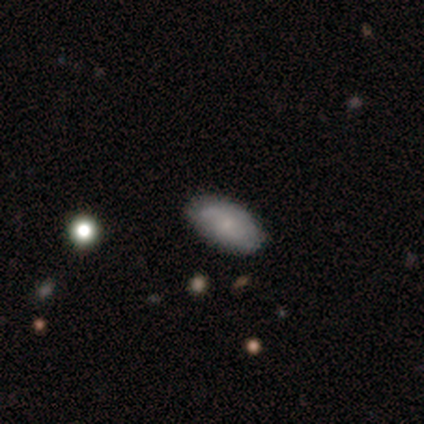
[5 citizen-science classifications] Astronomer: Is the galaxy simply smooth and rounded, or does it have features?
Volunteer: smooth — 60%.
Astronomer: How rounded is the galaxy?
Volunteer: in between — 100%.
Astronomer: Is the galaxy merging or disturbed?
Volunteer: none — 100%.